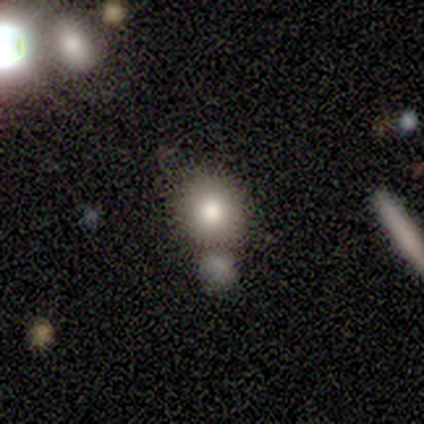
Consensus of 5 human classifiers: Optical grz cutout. It shows a smooth galaxy with no disk features (80%) that is round (100%). Merging: none (75%).